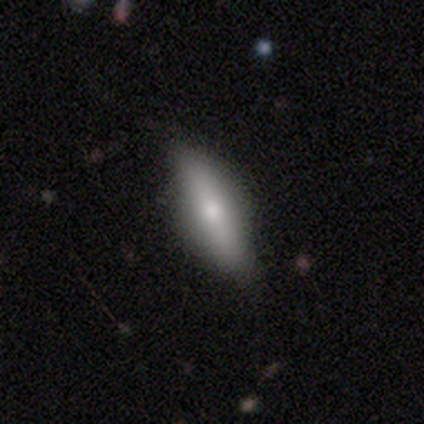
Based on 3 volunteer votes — Smooth or featured: smooth — 100%
How rounded: in between — 67% (cigar-shaped — 33%)
Merging: none — 67% (minor disturbance — 33%)